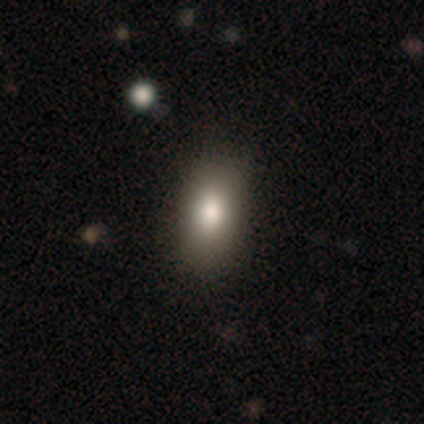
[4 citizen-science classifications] Smooth or featured?
  - star or artifact: 50% *
  - smooth: 25%
  - featured or disk: 25%